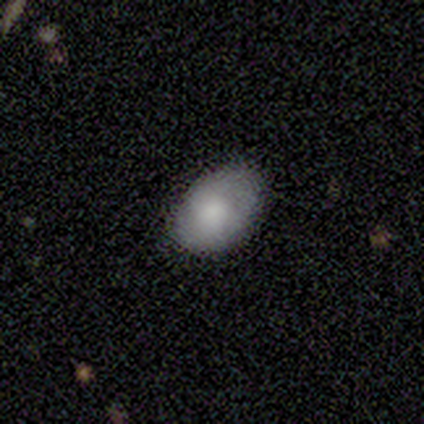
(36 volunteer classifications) Overall: smooth (78%). How rounded: in between (86%). Merging: none (75%).